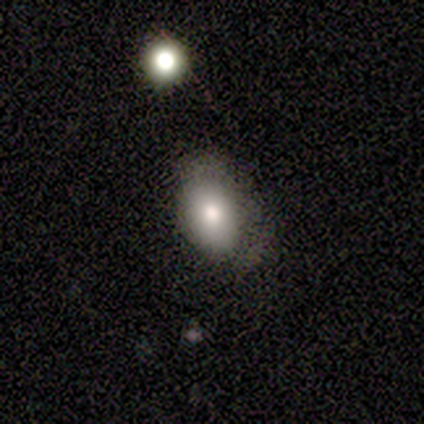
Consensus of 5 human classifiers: smooth_or_featured: smooth (p=1.00)
how_rounded: in between (p=1.00)
merging: none (p=0.60) [alt: minor disturbance p=0.20]